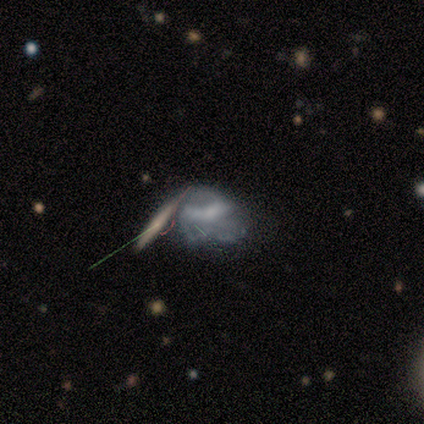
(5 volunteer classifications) A smooth galaxy with no disk features (60%) that is in between round and cigar-shaped (67%). Merging: merger (60%).